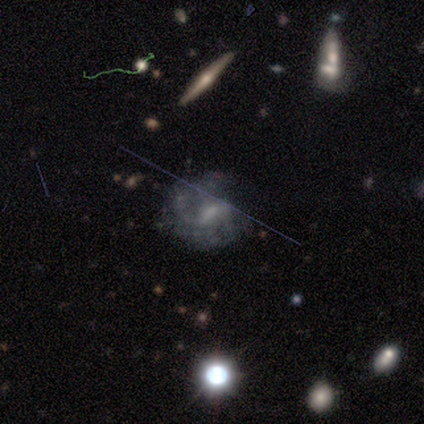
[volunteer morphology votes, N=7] Smooth or featured?
  - featured or disk: 100% *
  - smooth: 0%
  - star or artifact: 0%
Edge-on disk?
  - no: 100% *
  - yes: 0%
Bar?
  - weak: 71% *
  - strong: 14%
  - no: 14%
Spiral arms?
  - no: 57% *
  - yes: 43%
Bulge size?
  - moderate: 43% *
  - small: 29%
  - none: 29%
  - dominant: 0%
  - large: 0%
Merging?
  - none: 57% *
  - minor disturbance: 29%
  - major disturbance: 14%
  - merger: 0%